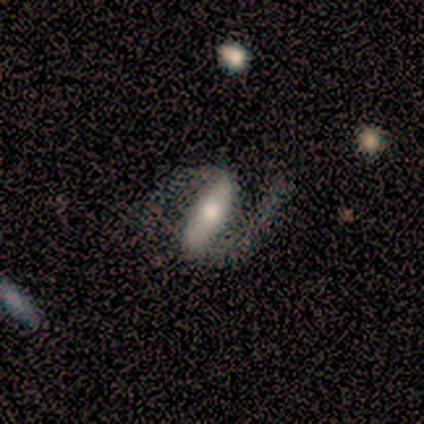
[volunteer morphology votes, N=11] This appears to be a featured or disk galaxy (82%) with a strong bar (62%), 2 (100%) medium (62%) spiral arms (100%) and a moderate central bulge (62%). Merging: none (64%).